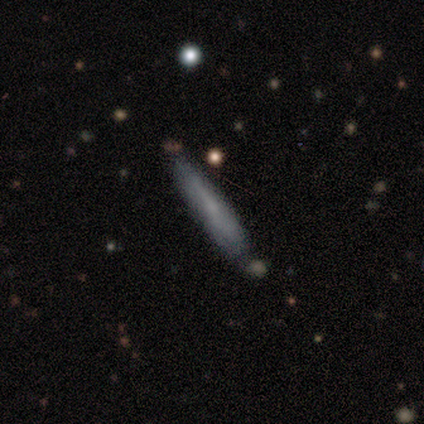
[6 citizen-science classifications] Smooth or featured? 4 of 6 (67%) said smooth. How rounded? 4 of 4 (100%) said cigar-shaped. Merging? 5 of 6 (83%) said none.